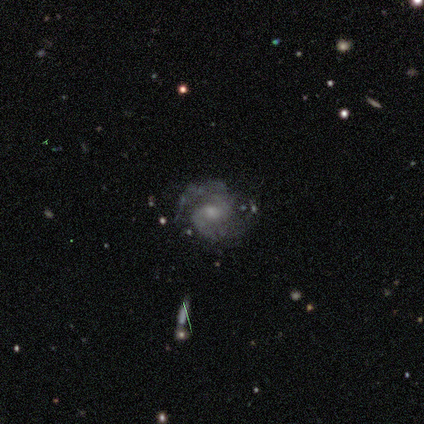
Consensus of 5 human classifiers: Q: Smooth or featured?
A: featured or disk (100%)
Q: Edge-on disk?
A: no (100%)
Q: Bar?
A: no (80%); runner-up: weak (20%)
Q: Spiral arms?
A: yes (100%)
Q: Spiral winding?
A: tight (60%); runner-up: medium (20%)
Q: Spiral arm count?
A: 2 (100%)
Q: Bulge size?
A: moderate (40%); tied with: small (40%)
Q: Merging?
A: none (100%)